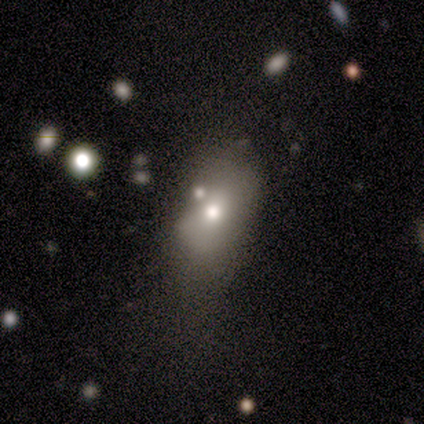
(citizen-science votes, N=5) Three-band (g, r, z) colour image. It shows a smooth galaxy with no disk features (60%) that is round (67%). Merging: major disturbance (40%).